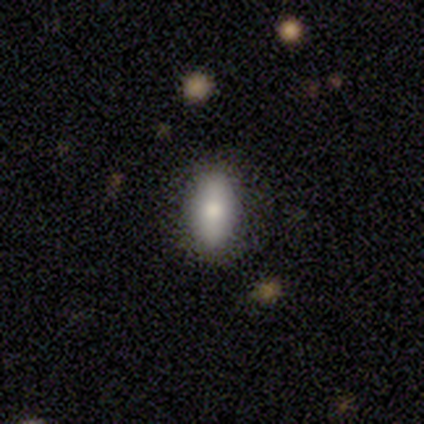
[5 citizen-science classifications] Smooth or featured? smooth (100%)
How rounded? in between (80%)
Merging? none (100%)